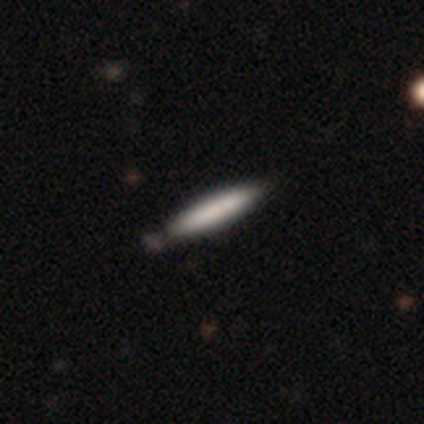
Smooth or featured? smooth (80%)
How rounded? cigar-shaped (75%)
Merging? none (60%)